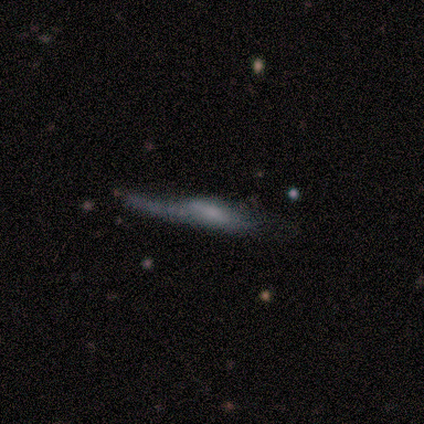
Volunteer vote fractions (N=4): Smooth or featured?
  - featured or disk: 50% *
  - smooth: 25%
  - star or artifact: 25%
Edge-on disk?
  - yes: 50% * (tied)
  - no: 50% * (tied)
Edge-on bulge?
  - rounded: 100% *
  - boxy: 0%
  - none: 0%
Merging?
  - major disturbance: 67% *
  - minor disturbance: 33%
  - none: 0%
  - merger: 0%